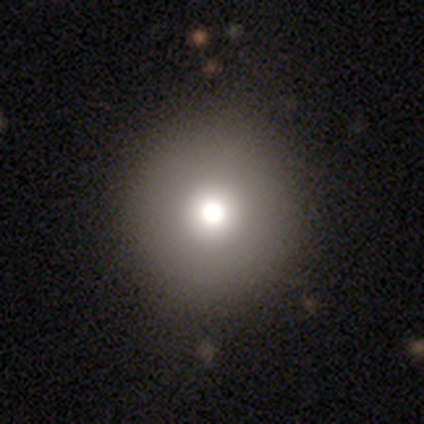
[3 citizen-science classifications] This is likely a smooth galaxy (67%). How rounded: possibly round (50%, tied with in between). Merging: clearly none (100%).